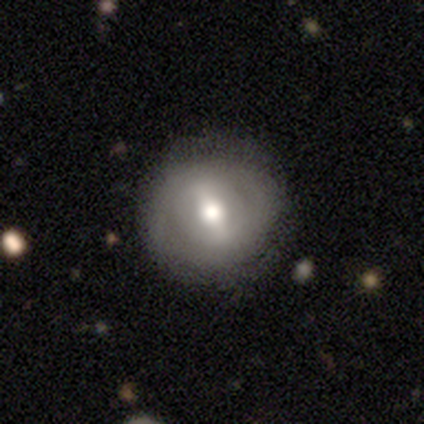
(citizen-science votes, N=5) smooth-or-featured: smooth: 60% | featured or disk: 40% | star or artifact: 0%
  how-rounded: round: 100% | in between: 0% | cigar-shaped: 0%
  merging: none: 80% | minor disturbance: 20% | major disturbance: 0% | merger: 0%